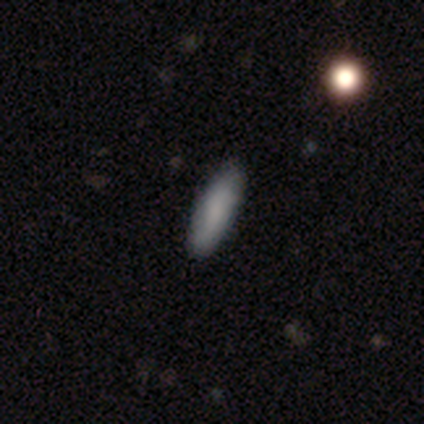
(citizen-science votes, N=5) smooth_or_featured: smooth (p=1.00)
how_rounded: in between (p=0.80) [alt: cigar-shaped p=0.20]
merging: none (p=1.00)